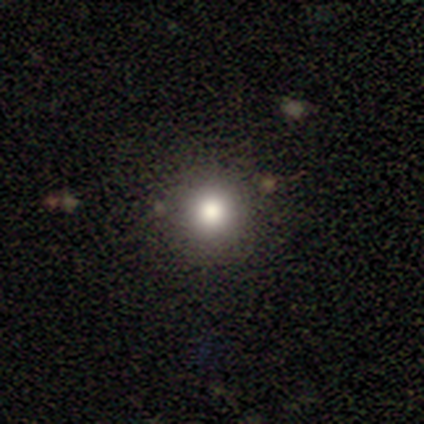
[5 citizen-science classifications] This appears to be a smooth galaxy with no disk features (60%) that is round (100%). Merging: none (100%).